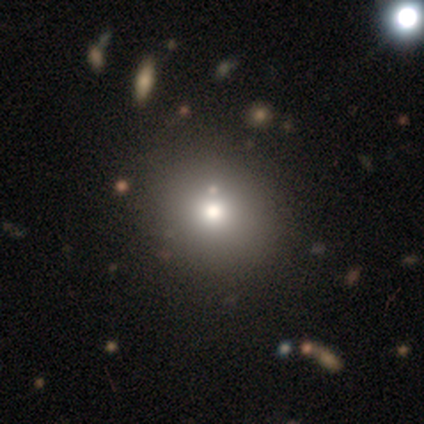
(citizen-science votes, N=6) This is clearly a smooth galaxy (100%). How rounded: clearly round (100%). Merging: clearly none (100%).